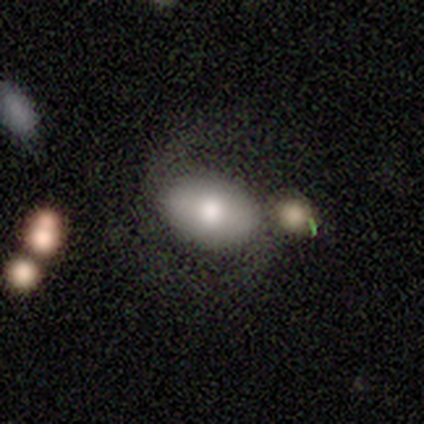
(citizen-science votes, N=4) This is clearly a smooth galaxy (100%). How rounded: clearly in between (100%). Merging: possibly none (50%).